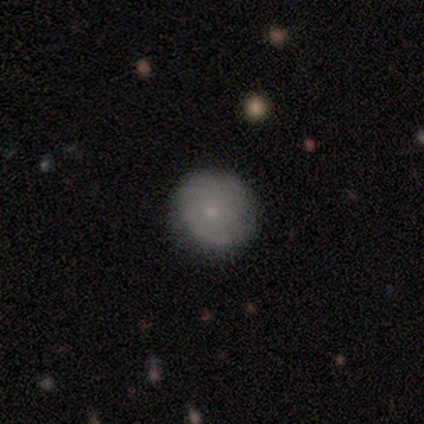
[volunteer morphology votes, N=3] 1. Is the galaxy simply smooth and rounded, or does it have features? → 67% featured or disk, 33% smooth, 0% star or artifact.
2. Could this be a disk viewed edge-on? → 100% no, 0% yes.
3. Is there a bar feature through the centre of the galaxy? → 50% weak (tied), 50% no (tied), 0% strong.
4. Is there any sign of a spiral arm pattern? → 100% yes, 0% no.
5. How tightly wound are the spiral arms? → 50% tight (tied), 50% loose (tied), 0% medium.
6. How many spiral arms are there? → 100% can't tell, 0% 1, 0% 2, 0% 3, 0% 4, 0% more than 4.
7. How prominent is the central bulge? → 100% small, 0% dominant, 0% large, 0% moderate, 0% none.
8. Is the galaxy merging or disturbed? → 67% none, 33% major disturbance, 0% minor disturbance, 0% merger.